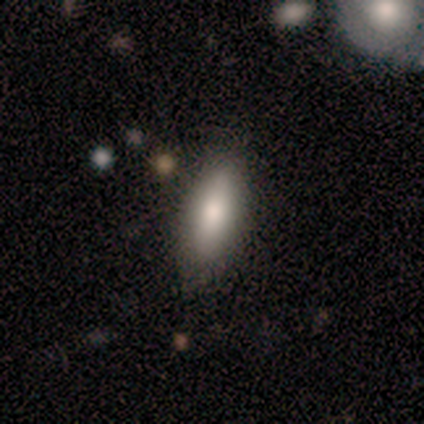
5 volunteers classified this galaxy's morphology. smooth_or_featured: smooth (p=1.00)
how_rounded: in between (p=0.60) [alt: cigar-shaped p=0.40]
merging: none (p=1.00)